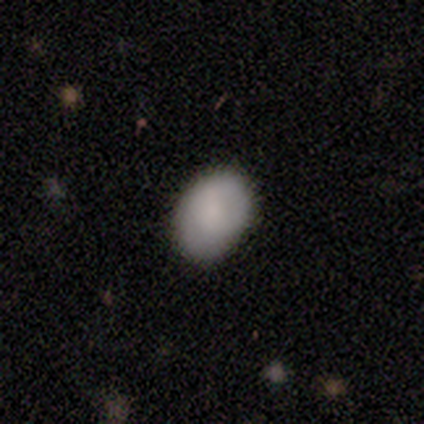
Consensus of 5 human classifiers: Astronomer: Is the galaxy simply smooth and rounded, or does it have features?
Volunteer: smooth — 80%.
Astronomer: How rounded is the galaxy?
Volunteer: in between — 75%.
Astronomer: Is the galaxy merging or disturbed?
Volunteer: none — 80%.